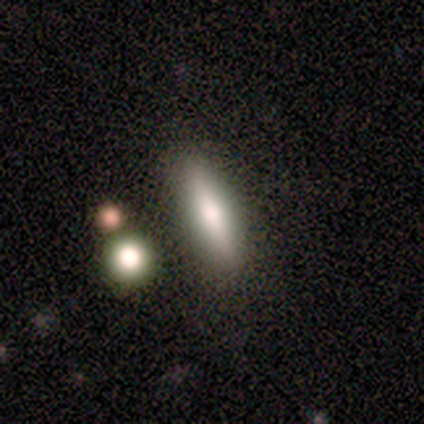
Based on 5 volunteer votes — smooth-or-featured: smooth: 60% | featured or disk: 20% | star or artifact: 20%
  how-rounded: in between: 100% | round: 0% | cigar-shaped: 0%
  merging: none: 75% | major disturbance: 25% | minor disturbance: 0% | merger: 0%